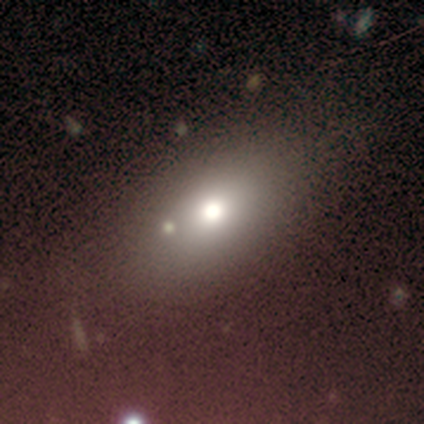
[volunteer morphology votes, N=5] Smooth or featured?
  - smooth: 80% *
  - featured or disk: 20%
  - star or artifact: 0%
How rounded?
  - in between: 100% *
  - round: 0%
  - cigar-shaped: 0%
Merging?
  - none: 100% *
  - minor disturbance: 0%
  - major disturbance: 0%
  - merger: 0%